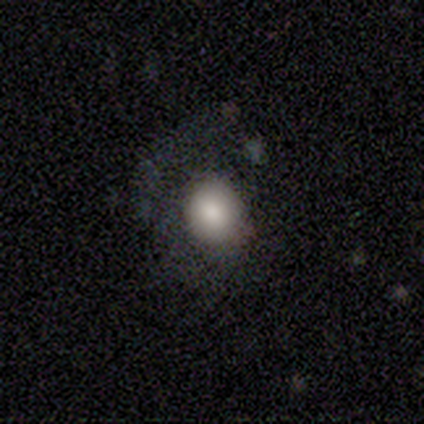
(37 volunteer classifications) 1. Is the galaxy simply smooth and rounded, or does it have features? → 78% smooth, 19% featured or disk, 3% star or artifact.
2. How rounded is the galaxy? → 79% round, 21% in between, 0% cigar-shaped.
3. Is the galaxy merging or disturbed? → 39% none (tied), 39% major disturbance (tied), 19% minor disturbance, 3% merger.